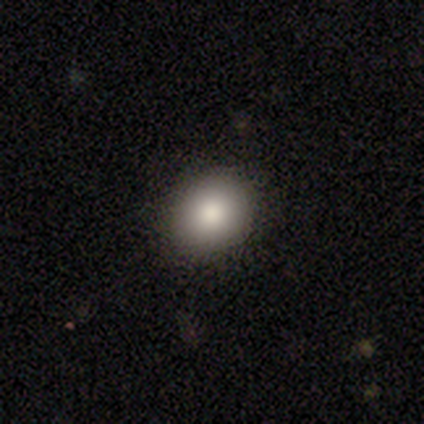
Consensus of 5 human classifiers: Morphology: type=smooth (100%); roundness=in between (60%); merging=none (100%).